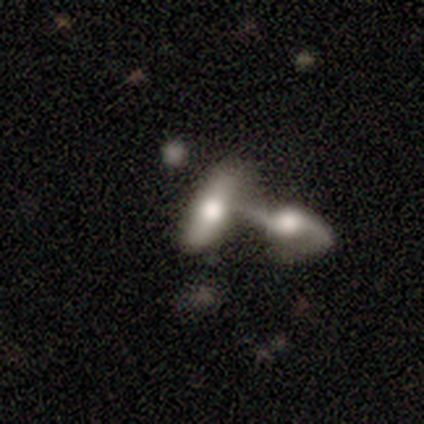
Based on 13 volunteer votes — Overall: smooth (54%; featured or disk 38%). How rounded: in between (57%; cigar-shaped 43%). Merging: merger (92%).